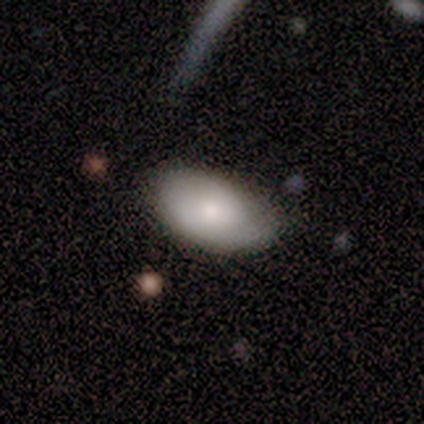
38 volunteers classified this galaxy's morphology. A smooth galaxy with no disk features (61%) that is in between round and cigar-shaped (96%). Merging: none (68%).